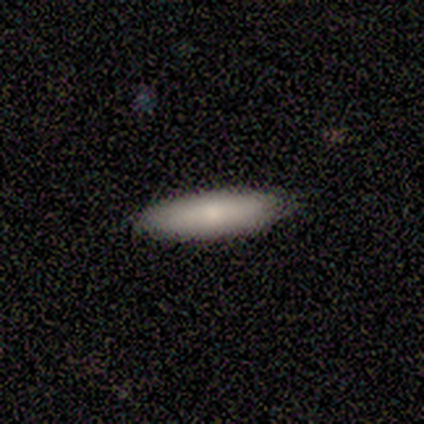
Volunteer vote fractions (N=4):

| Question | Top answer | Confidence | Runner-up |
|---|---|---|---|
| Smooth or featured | smooth | 100% | — |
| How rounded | in between | 50% | tied: cigar-shaped (50%) |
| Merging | none | 100% | — |